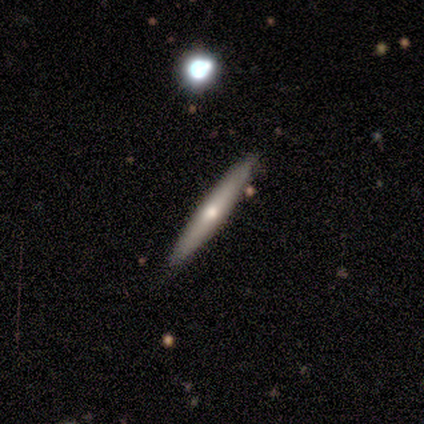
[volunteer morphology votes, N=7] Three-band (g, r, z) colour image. It shows a smooth galaxy with no disk features (57%) that is cigar-shaped (75%). Merging: none (100%).